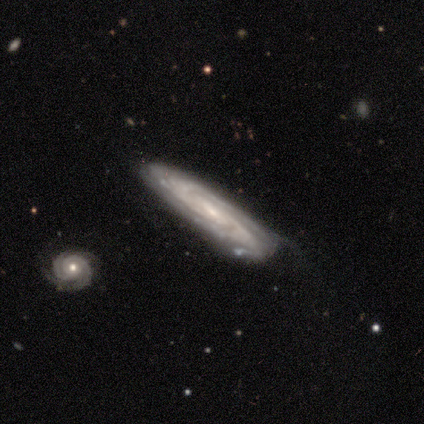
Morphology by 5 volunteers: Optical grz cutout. It shows a featured or disk galaxy (60%) with a weak bar (50%, tied with no), 3 (100%) tight (100%) spiral arms (100%) and a small central bulge (100%). Merging: none (50%, tied with minor disturbance).